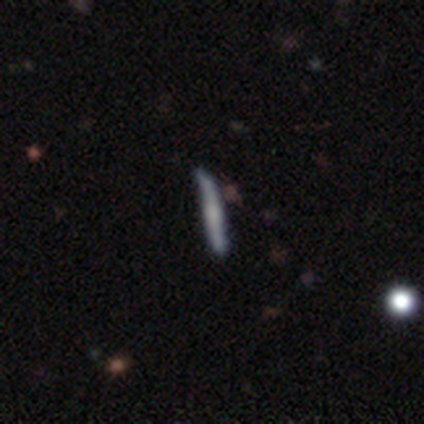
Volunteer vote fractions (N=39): A featured or disk galaxy (54%) viewed edge-on (76%) with no central bulge (50%). Merging: none (53%).